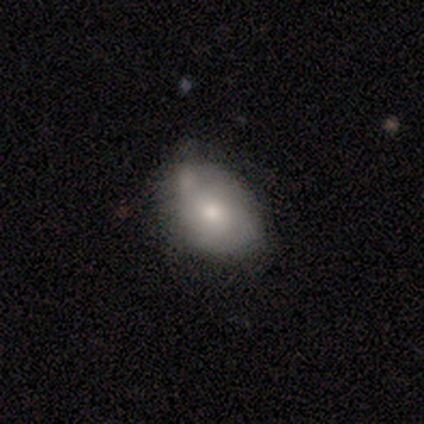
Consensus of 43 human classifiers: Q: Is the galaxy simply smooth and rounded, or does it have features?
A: smooth — 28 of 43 (65%).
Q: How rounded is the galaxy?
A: in between — 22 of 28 (79%).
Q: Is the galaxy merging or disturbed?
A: none — 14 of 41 (34%).